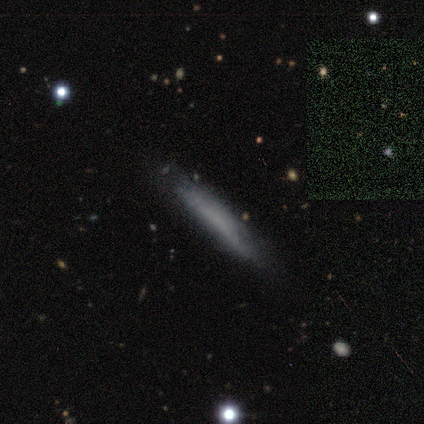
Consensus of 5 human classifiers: smooth-or-featured: smooth: 80% | featured or disk: 20% | star or artifact: 0%
  how-rounded: cigar-shaped: 75% | in between: 25% | round: 0%
  merging: none: 80% | minor disturbance: 20% | major disturbance: 0% | merger: 0%